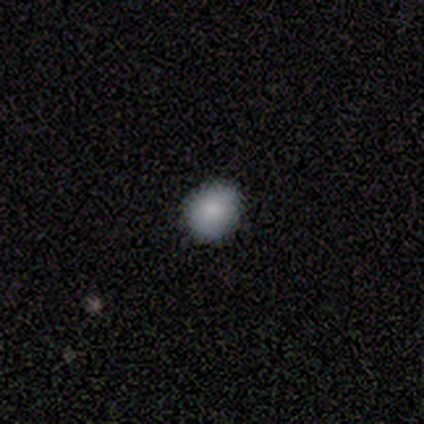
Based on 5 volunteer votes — Morphology: type=smooth (100%); roundness=round (80%); merging=none (80%).